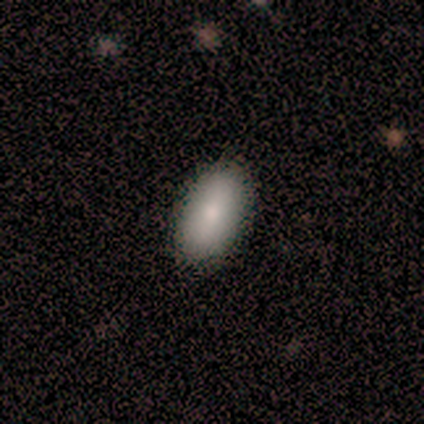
Q: Smooth or featured?
A: smooth (100%)
Q: How rounded?
A: in between (100%)
Q: Merging?
A: none (100%)